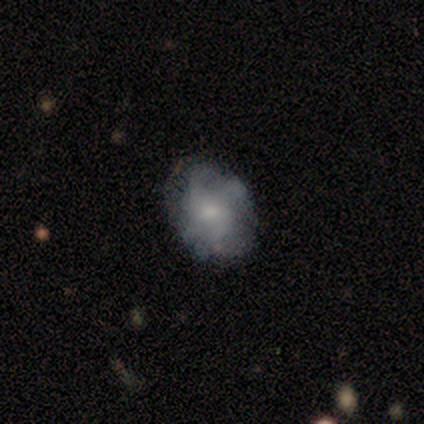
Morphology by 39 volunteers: type=featured or disk (56%); edge-on=no (100%); bar=no (77%); spiral arms=yes (50%, tied with no); winding=tight (45%); arm count=4 (36%); bulge=small (41%); merging=none (58%).